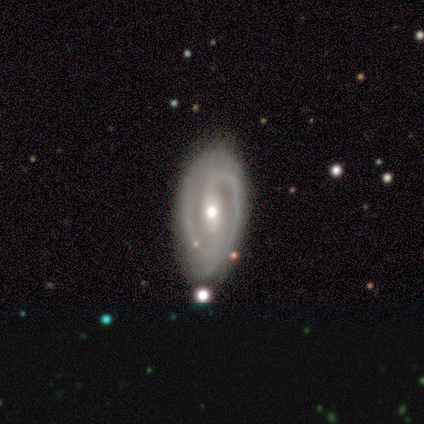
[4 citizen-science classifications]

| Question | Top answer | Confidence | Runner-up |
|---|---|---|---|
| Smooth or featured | featured or disk | 100% | — |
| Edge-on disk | no | 100% | — |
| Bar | no | 75% | strong (25%) |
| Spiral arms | no | 75% | yes (25%) |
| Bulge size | moderate | 100% | — |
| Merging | none | 100% | — |